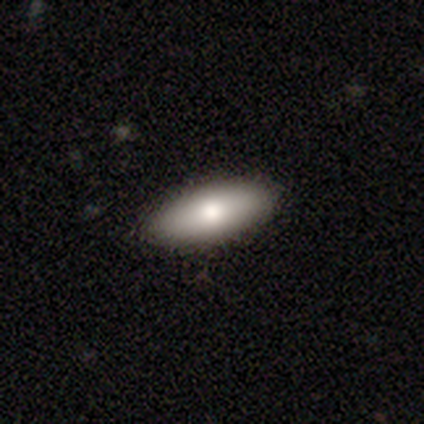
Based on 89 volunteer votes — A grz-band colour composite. It shows a smooth galaxy with no disk features (89%) that is in between round and cigar-shaped (86%). Merging: none (88%).